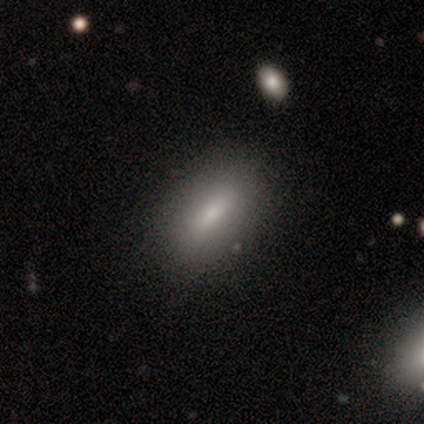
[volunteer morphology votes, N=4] A smooth galaxy with no disk features (75%) that is in between round and cigar-shaped (100%).

Vote fractions:
- Smooth or featured? smooth: 75% / star or artifact: 25% / featured or disk: 0%
- How rounded? in between: 100% / round: 0% / cigar-shaped: 0%
- Merging? none: 100% / minor disturbance: 0% / major disturbance: 0% / merger: 0%